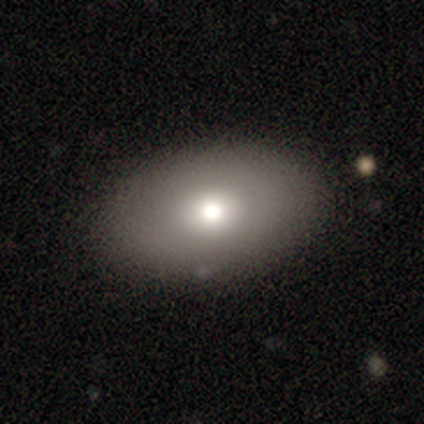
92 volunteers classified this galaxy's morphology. Smooth or featured: smooth — 77% (featured or disk — 18%)
How rounded: in between — 86% (round — 13%)
Merging: none — 89% (minor disturbance — 9%)